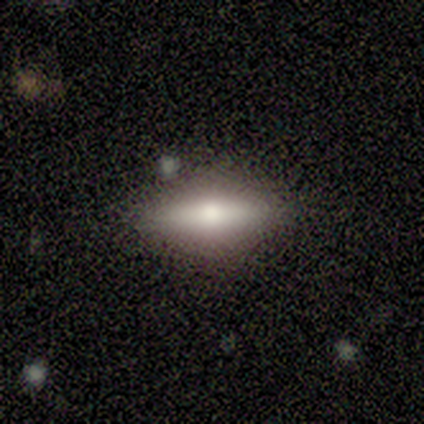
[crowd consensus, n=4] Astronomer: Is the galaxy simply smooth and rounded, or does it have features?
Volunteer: smooth — 75%.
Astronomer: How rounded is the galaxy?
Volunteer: in between — 67%.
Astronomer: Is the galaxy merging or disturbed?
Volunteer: none — 100%.